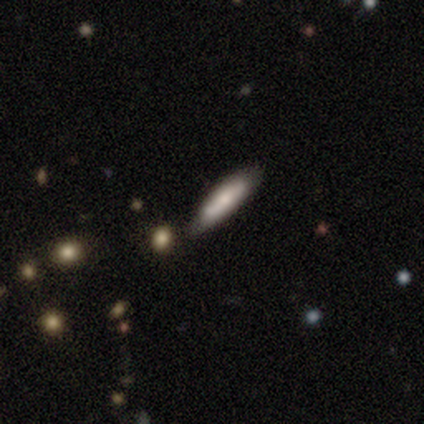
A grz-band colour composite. It shows a smooth galaxy with no disk features (60%) that is cigar-shaped (67%). Merging: none (100%).